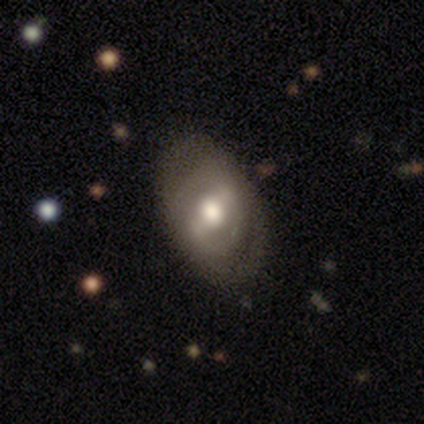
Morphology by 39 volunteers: Smooth or featured? featured or disk (67%)
Edge-on disk? no (96%)
Bar? strong (48%)
Spiral arms? yes (76%)
Spiral winding? tight (47%)
Spiral arm count? 2 (95%)
Bulge size? moderate (52%)
Merging? none (77%)